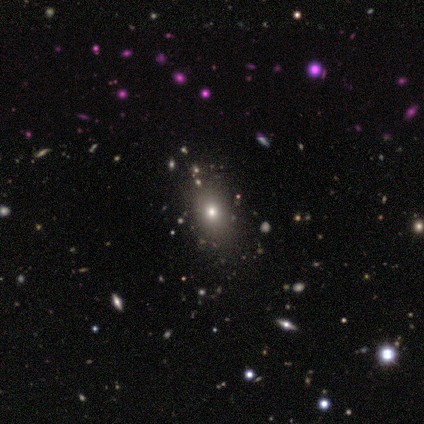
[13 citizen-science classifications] Q: Smooth or featured?
A: smooth (62%); runner-up: featured or disk (31%)
Q: How rounded?
A: in between (62%); runner-up: cigar-shaped (25%)
Q: Merging?
A: none (83%); runner-up: minor disturbance (17%)